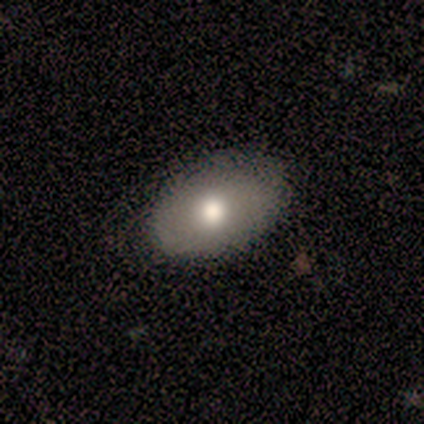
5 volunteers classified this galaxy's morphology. A smooth galaxy with no disk features (60%) that is in between round and cigar-shaped (100%). Merging: none (100%).